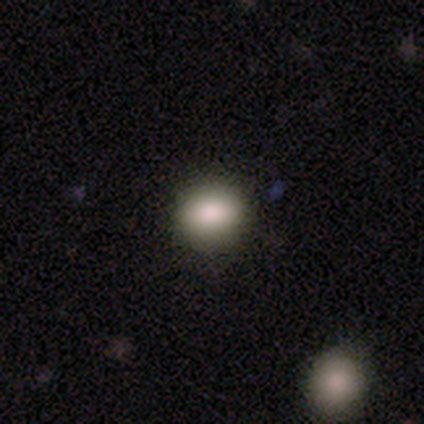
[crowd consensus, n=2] smooth 50% (tied), star or artifact 50% (tied), featured or disk 0%. Down the decision tree: how rounded — round (100%); merging — none (100%).